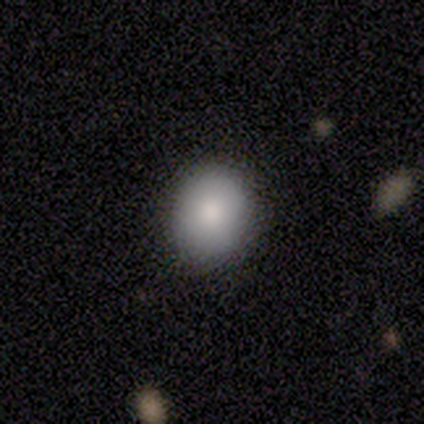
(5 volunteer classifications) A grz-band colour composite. It shows a smooth galaxy with no disk features (100%) that is in between round and cigar-shaped (60%). Merging: none (100%).